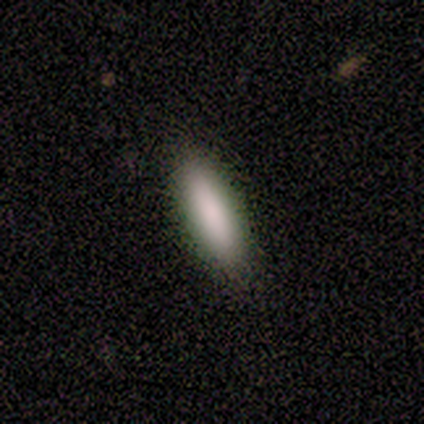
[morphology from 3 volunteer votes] smooth-or-featured: smooth: 100% | featured or disk: 0% | star or artifact: 0%
  how-rounded: in between: 67% | cigar-shaped: 33% | round: 0%
  merging: none: 100% | minor disturbance: 0% | major disturbance: 0% | merger: 0%